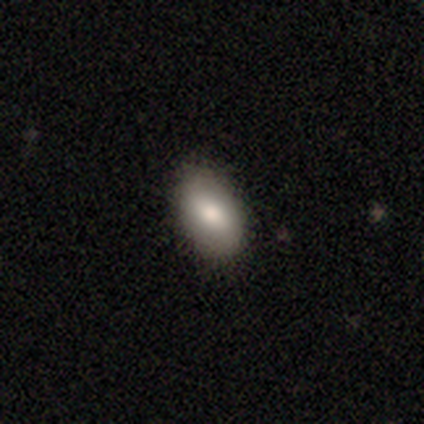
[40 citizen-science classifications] Smooth or featured?
  - smooth: 90% *
  - featured or disk: 5%
  - star or artifact: 5%
How rounded?
  - in between: 97% *
  - round: 3%
  - cigar-shaped: 0%
Merging?
  - none: 79% *
  - minor disturbance: 18%
  - merger: 3%
  - major disturbance: 0%